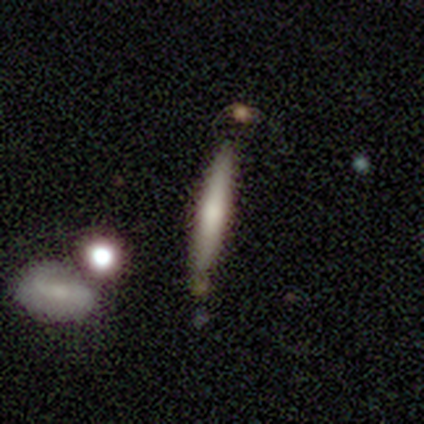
Smooth or featured? 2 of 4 (50%, tied with featured or disk) said smooth. How rounded? 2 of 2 (100%) said cigar-shaped. Merging? 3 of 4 (75%) said none.